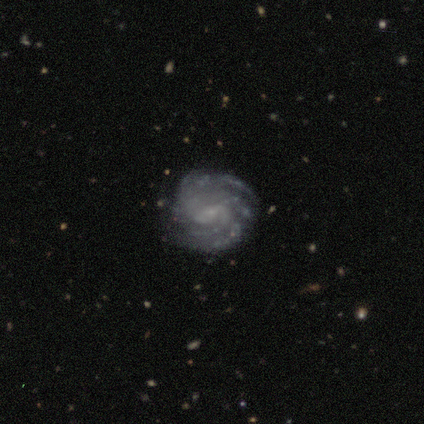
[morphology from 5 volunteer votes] Smooth or featured: featured or disk — 100%
Edge-on disk: no — 100%
Bar: weak — 80% (no — 20%)
Spiral arms: yes — 100%
Spiral winding: tight — 60% (medium — 40%)
Spiral arm count: 3 — 40% (4 — 20%)
Bulge size: small — 100%
Merging: none — 80% (minor disturbance — 20%)